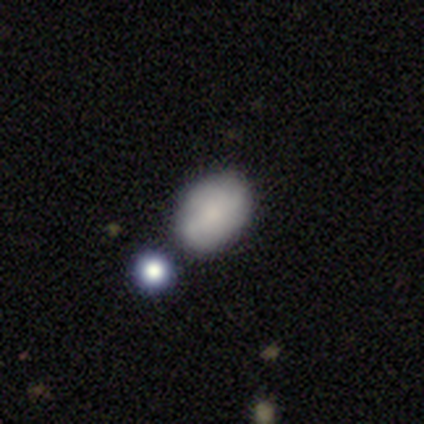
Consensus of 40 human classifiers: A smooth galaxy with no disk features (72%) that is in between round and cigar-shaped (86%).

Vote fractions:
- Smooth or featured? smooth: 72% / featured or disk: 22% / star or artifact: 5%
- How rounded? in between: 86% / round: 14% / cigar-shaped: 0%
- Merging? none: 61% / minor disturbance: 21% / merger: 13% / major disturbance: 5%